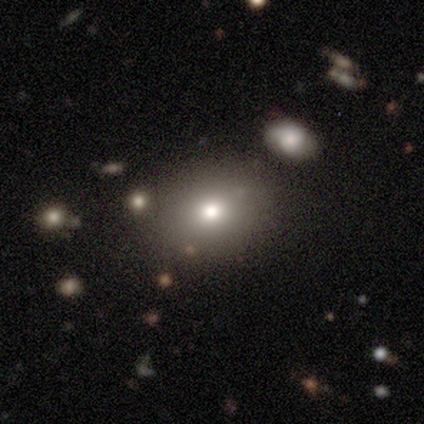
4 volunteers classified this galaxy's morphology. smooth 100%, featured or disk 0%, star or artifact 0%. Down the decision tree: how rounded — round (50%, tied with in between); merging — none (100%).